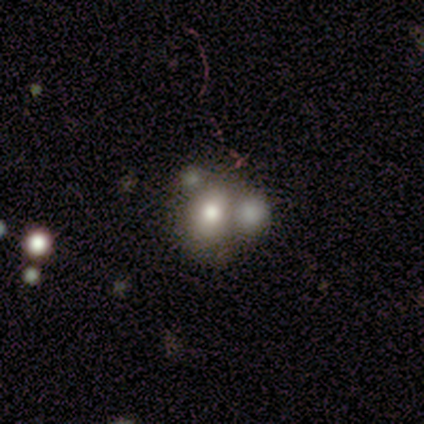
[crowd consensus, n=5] Overall: smooth (80%). How rounded: round (75%). Merging: none (40%, tied with merger).